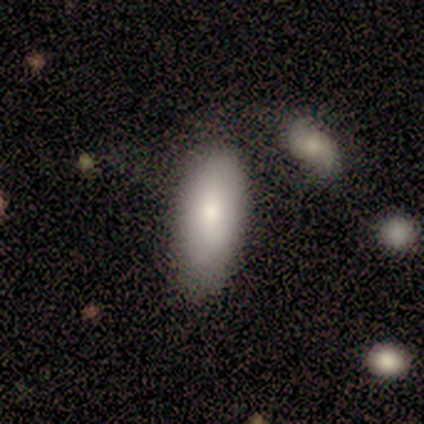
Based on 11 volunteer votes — smooth 73%, featured or disk 18%, star or artifact 9%. Down the decision tree: how rounded — in between (88%); merging — none (90%).